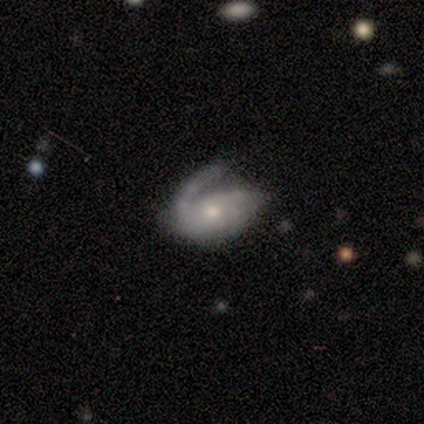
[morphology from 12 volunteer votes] type=featured or disk (75%); edge-on=no (89%); bar=no (100%); spiral arms=yes (100%); winding=medium (62%); arm count=1 (50%); bulge=moderate (50%, tied with small); merging=none (36%, tied with minor disturbance).